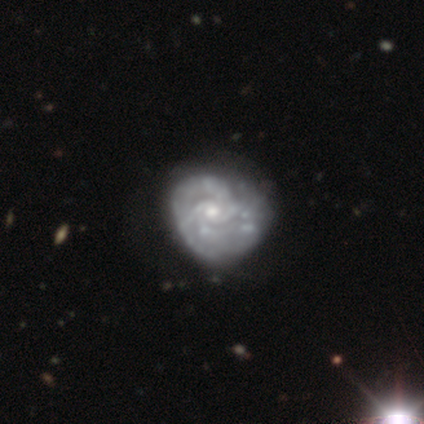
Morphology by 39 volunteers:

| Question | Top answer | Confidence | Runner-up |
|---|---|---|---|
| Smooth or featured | featured or disk | 95% | smooth (5%) |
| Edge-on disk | no | 97% | yes (3%) |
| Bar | no | 61% | weak (36%) |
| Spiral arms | yes | 92% | no (8%) |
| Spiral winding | tight | 55% | medium (30%) |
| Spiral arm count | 4 | 27% | 2 (24%) |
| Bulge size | small | 53% | moderate (42%) |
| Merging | none | 38% | minor disturbance (15%) |